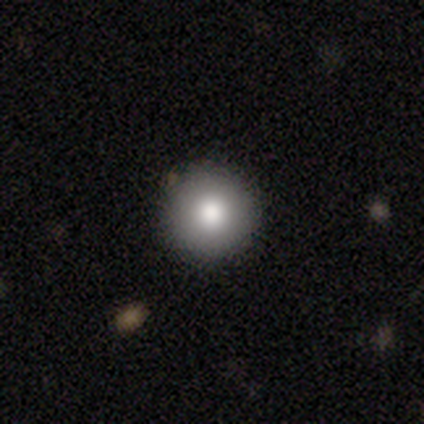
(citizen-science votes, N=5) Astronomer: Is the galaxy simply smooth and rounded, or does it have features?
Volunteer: smooth — 60% (runner-up: star or artifact, 40%).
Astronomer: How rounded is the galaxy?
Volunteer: round — 100%.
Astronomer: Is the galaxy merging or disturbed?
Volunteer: none — 100%.